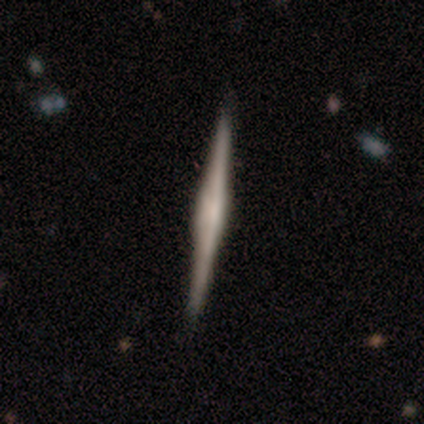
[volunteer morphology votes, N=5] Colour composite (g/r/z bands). It shows a featured or disk galaxy (100%) viewed edge-on (100%) with a boxy central bulge (80%). Merging: none (100%).